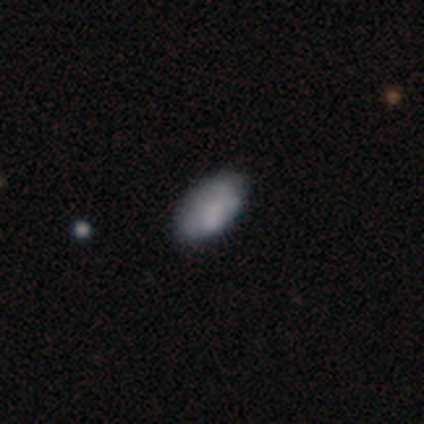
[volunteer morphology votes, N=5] Volunteers were most divided on "smooth or featured" (2-way tie): smooth: 40%, featured or disk: 40%, star or artifact: 20%. More confident: how rounded — in between (100%); merging — none (75%).